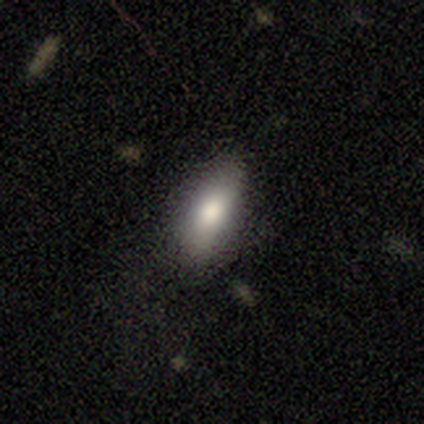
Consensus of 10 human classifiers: Smooth or featured? smooth (70%)
How rounded? in between (86%)
Merging? none (88%)